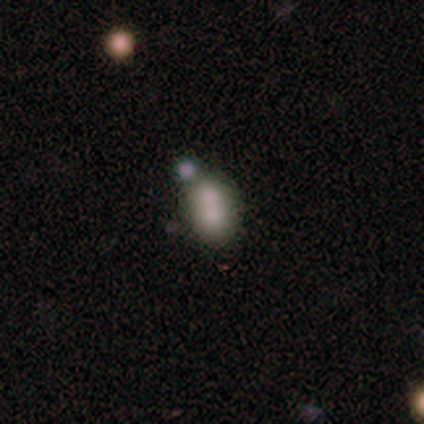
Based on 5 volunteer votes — Smooth or featured? smooth (80%)
How rounded? in between (75%)
Merging? minor disturbance (60%)